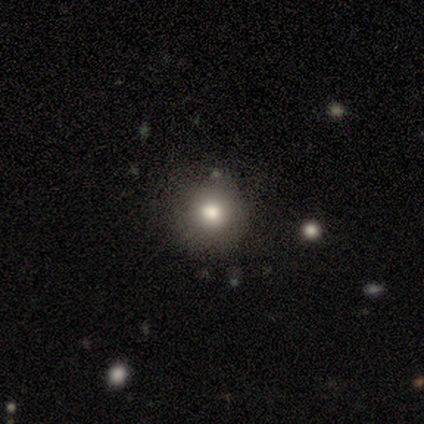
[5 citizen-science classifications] Smooth or featured? 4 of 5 (80%) said smooth. How rounded? 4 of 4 (100%) said round. Merging? 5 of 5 (100%) said none.